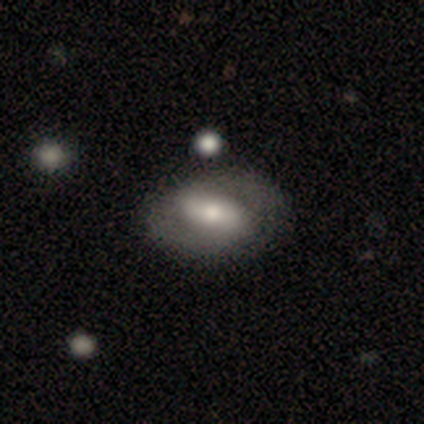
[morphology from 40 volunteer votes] Overall: featured or disk (65%; smooth 30%). Edge-on disk: no (100%). Bar: strong (54%; weak 38%). Spiral arms: yes (62%; no 38%). Spiral arm count: 2 (100%). Spiral winding: medium (44%; tight 31%). Bulge size: moderate (81%). Merging: none (53%; minor disturbance 13%).